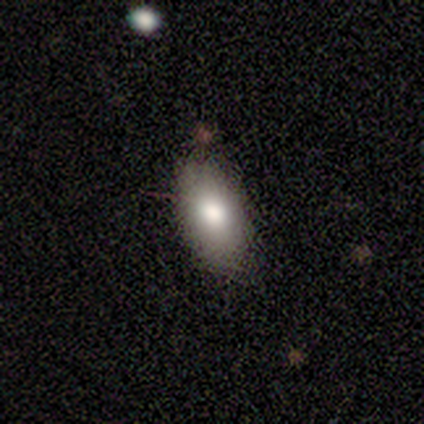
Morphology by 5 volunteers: Consensus on every question: smooth or featured — smooth (100%); how rounded — in between (100%); merging — none (100%).